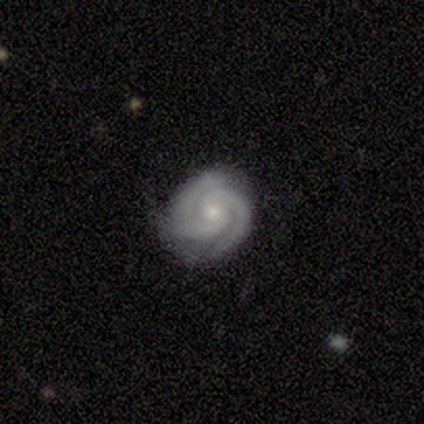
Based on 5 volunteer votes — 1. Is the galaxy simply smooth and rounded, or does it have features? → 80% featured or disk, 20% star or artifact, 0% smooth.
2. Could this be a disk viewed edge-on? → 100% no, 0% yes.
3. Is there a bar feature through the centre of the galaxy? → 100% no, 0% strong, 0% weak.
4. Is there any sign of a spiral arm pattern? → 100% yes, 0% no.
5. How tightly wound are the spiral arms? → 75% tight, 25% medium, 0% loose.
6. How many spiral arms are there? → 75% 2, 25% 3, 0% 1, 0% 4, 0% more than 4, 0% can't tell.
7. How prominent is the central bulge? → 100% small, 0% dominant, 0% large, 0% moderate, 0% none.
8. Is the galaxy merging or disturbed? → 100% none, 0% minor disturbance, 0% major disturbance, 0% merger.